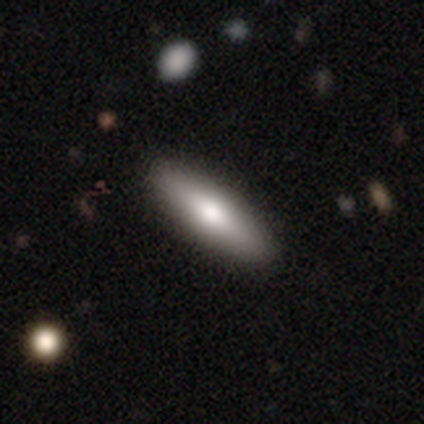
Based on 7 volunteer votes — smooth_or_featured: smooth (p=0.86) [alt: featured or disk p=0.14]
how_rounded: cigar-shaped (p=0.67) [alt: in between p=0.33]
merging: none (p=0.86) [alt: major disturbance p=0.14]